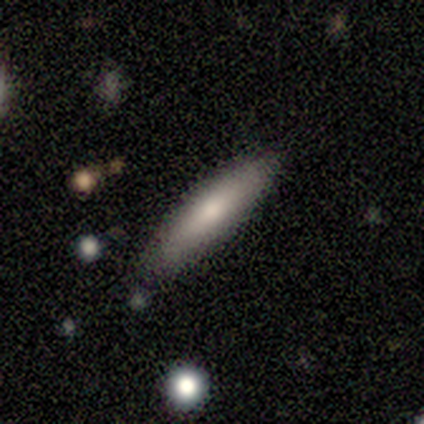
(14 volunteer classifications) Smooth or featured?
  - smooth: 86% *
  - featured or disk: 14%
  - star or artifact: 0%
How rounded?
  - cigar-shaped: 58% *
  - in between: 42%
  - round: 0%
Merging?
  - none: 86% *
  - minor disturbance: 14%
  - major disturbance: 0%
  - merger: 0%